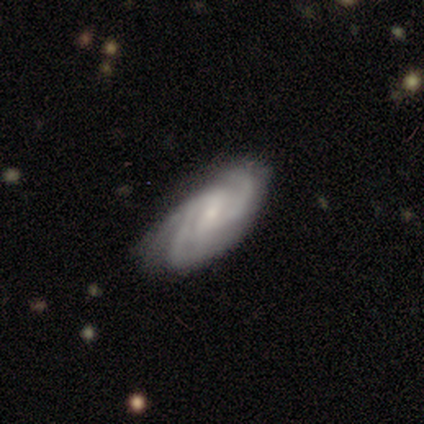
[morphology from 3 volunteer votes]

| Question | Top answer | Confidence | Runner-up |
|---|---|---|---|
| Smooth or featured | featured or disk | 100% | — |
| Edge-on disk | no | 67% | yes (33%) |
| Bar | weak | 50% | tied: no (50%) |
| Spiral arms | yes | 100% | — |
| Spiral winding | tight | 50% | tied: medium (50%) |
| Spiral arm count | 2 | 50% | tied: can't tell (50%) |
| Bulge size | small | 100% | — |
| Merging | none | 100% | — |